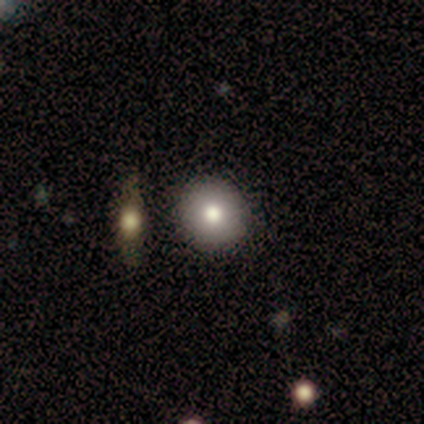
Q: Smooth or featured?
A: smooth (80%); runner-up: star or artifact (20%)
Q: How rounded?
A: round (100%)
Q: Merging?
A: none (100%)